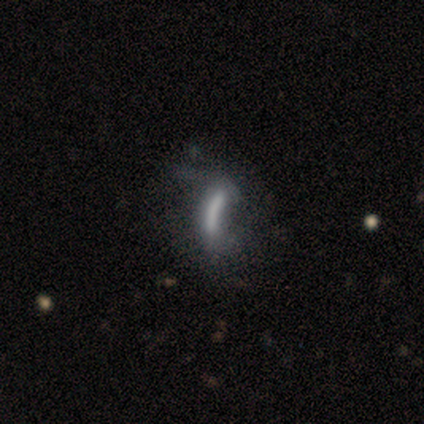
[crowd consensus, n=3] A featured or disk galaxy (67%) viewed edge-on (50%, tied with no) with no central bulge (100%). Merging: none (33%, tied with minor disturbance and major disturbance).